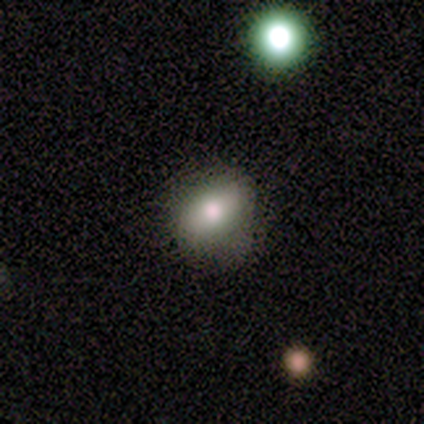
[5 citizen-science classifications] Q: Smooth or featured?
A: smooth (60%); runner-up: featured or disk (20%)
Q: How rounded?
A: in between (67%); runner-up: round (33%)
Q: Merging?
A: none (100%)